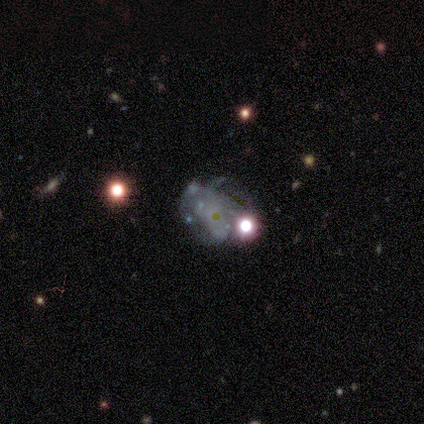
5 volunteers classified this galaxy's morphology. Smooth or featured: featured or disk — 80% (smooth — 20%)
Edge-on disk: no — 75% (yes — 25%)
Bar: no — 67% (weak — 33%)
Spiral arms: no — 67% (yes — 33%)
Bulge size: large — 33% (tied with moderate — 33%; small — 33%)
Merging: major disturbance — 60% (none — 40%)